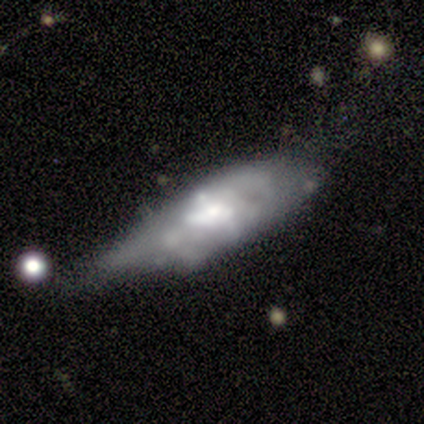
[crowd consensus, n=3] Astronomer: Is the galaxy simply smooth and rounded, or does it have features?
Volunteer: featured or disk — 67%.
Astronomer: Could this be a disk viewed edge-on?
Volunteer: no — 100%.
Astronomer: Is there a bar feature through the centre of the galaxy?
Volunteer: weak — 50%, tied with no at 50%.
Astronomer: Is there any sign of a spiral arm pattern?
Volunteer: no — 100%.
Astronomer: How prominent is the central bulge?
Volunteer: small — 50%, tied with none at 50%.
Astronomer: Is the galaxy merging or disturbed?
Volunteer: none — 33%, tied with minor disturbance and major disturbance at 33%.